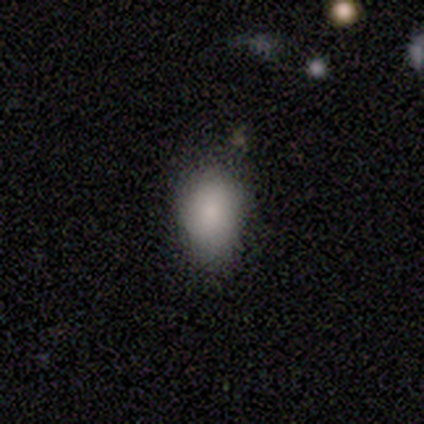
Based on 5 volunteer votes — A smooth galaxy with no disk features (100%) that is in between round and cigar-shaped (80%). Merging: none (60%).